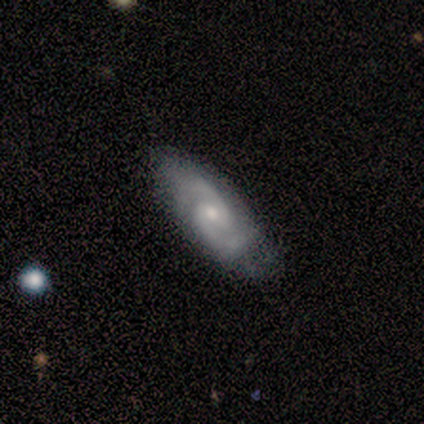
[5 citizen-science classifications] A featured or disk galaxy (100%) with no bar (60%), 2 (100%) medium (60%) spiral arms (100%) and a moderate central bulge (80%).

Vote fractions:
- Smooth or featured? featured or disk: 100% / smooth: 0% / star or artifact: 0%
- Edge-on disk? no: 100% / yes: 0%
- Bar? no: 60% / weak: 40% / strong: 0%
- Spiral arms? yes: 100% / no: 0%
- Spiral winding? medium: 60% / tight: 40% / loose: 0%
- Spiral arm count? 2: 100% / 1: 0% / 3: 0% / 4: 0% / more than 4: 0% / can't tell: 0%
- Bulge size? moderate: 80% / small: 20% / dominant: 0% / large: 0% / none: 0%
- Merging? minor disturbance: 60% / none: 40% / major disturbance: 0% / merger: 0%